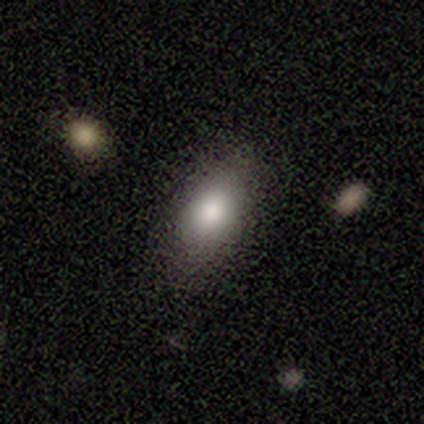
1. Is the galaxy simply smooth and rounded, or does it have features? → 60% smooth, 20% featured or disk, 20% star or artifact.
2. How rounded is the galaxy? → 100% in between, 0% round, 0% cigar-shaped.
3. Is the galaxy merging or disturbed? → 75% none, 25% minor disturbance, 0% major disturbance, 0% merger.